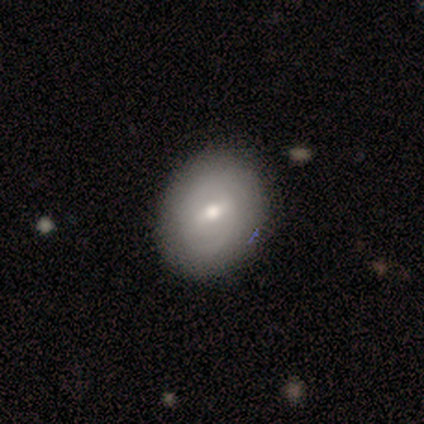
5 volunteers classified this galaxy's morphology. Smooth or featured: smooth — 60% (featured or disk — 40%)
How rounded: in between — 67% (round — 33%)
Merging: none — 100%